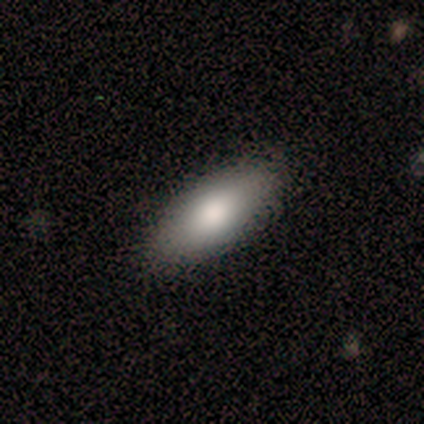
smooth 86%, featured or disk 14%, star or artifact 0%. Down the decision tree: how rounded — in between (67%); merging — none (86%).